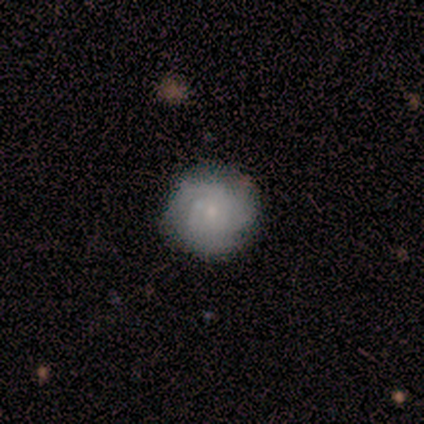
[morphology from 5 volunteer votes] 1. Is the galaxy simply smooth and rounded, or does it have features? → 80% smooth, 20% featured or disk, 0% star or artifact.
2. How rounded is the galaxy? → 75% round, 25% in between, 0% cigar-shaped.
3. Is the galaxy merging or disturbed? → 100% none, 0% minor disturbance, 0% major disturbance, 0% merger.